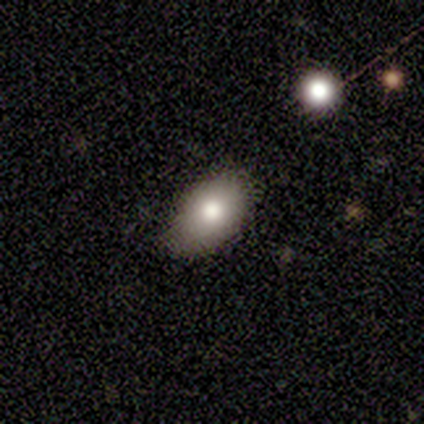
This is clearly a smooth galaxy (83%). How rounded: likely round (60%). Merging: possibly none (50%).